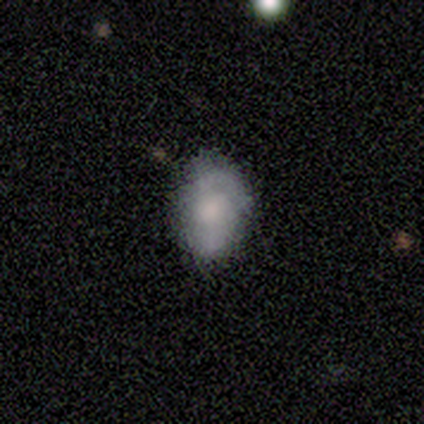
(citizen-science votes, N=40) This appears to be a smooth galaxy with no disk features (65%) that is in between round and cigar-shaped (85%). Merging: none (69%).